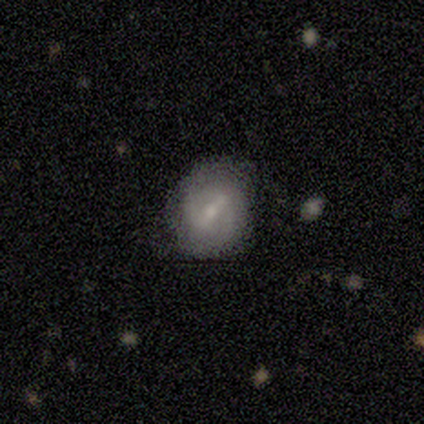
Smooth or featured: smooth — 60% (featured or disk — 40%)
How rounded: in between — 67% (round — 33%)
Merging: none — 60% (minor disturbance — 40%)